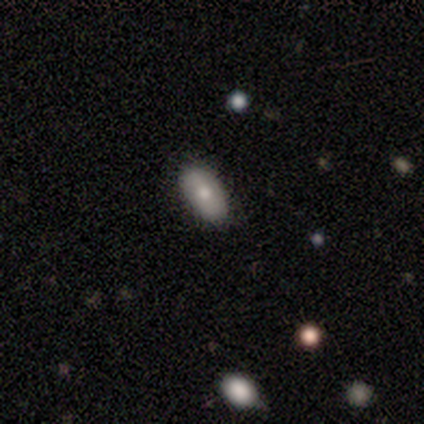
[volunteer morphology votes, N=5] smooth-or-featured: smooth: 80% | featured or disk: 20% | star or artifact: 0%
  how-rounded: in between: 100% | round: 0% | cigar-shaped: 0%
  merging: none: 80% | minor disturbance: 20% | major disturbance: 0% | merger: 0%